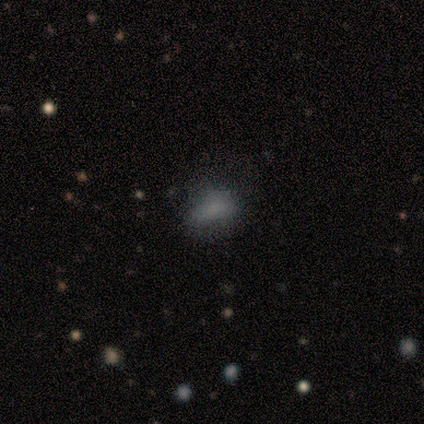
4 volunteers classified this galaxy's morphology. Volunteers were most divided on "how rounded": round: 67%, in between: 33%, cigar-shaped: 0%. More confident: smooth or featured — smooth (75%); merging — none (75%).